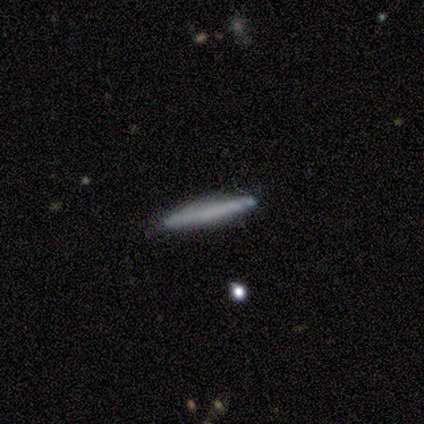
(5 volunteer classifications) Smooth or featured?
  - featured or disk: 60% *
  - smooth: 40%
  - star or artifact: 0%
Edge-on disk?
  - yes: 100% *
  - no: 0%
Edge-on bulge?
  - none: 100% *
  - boxy: 0%
  - rounded: 0%
Merging?
  - none: 80% *
  - minor disturbance: 20%
  - major disturbance: 0%
  - merger: 0%